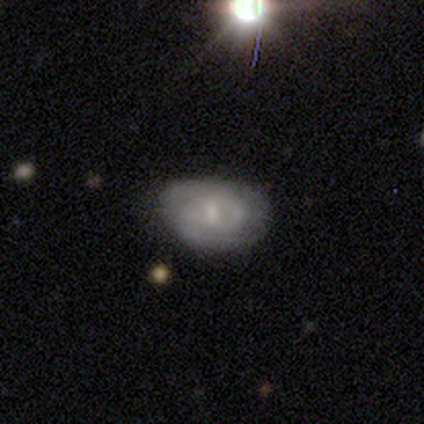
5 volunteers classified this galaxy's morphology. Smooth or featured? featured or disk (80%)
Edge-on disk? no (75%)
Bar? no (100%)
Spiral arms? no (67%)
Bulge size? small (67%)
Merging? none (60%)